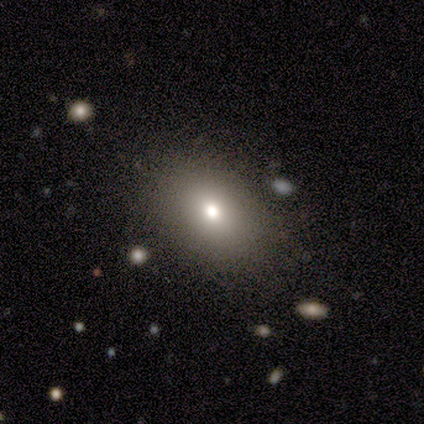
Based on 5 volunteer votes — This is likely a smooth galaxy (60%). How rounded: likely in between (67%). Merging: clearly none (80%).